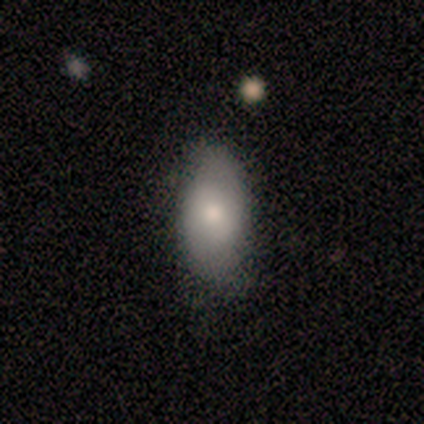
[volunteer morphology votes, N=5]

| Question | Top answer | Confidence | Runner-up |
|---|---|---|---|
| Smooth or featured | smooth | 60% | featured or disk (40%) |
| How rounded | in between | 100% | — |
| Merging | none | 80% | minor disturbance (20%) |